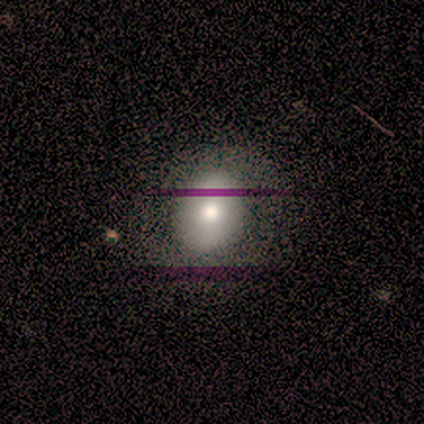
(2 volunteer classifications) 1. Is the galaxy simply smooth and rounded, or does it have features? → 100% smooth, 0% featured or disk, 0% star or artifact.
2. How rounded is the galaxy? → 100% in between, 0% round, 0% cigar-shaped.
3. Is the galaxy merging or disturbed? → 50% none (tied), 50% minor disturbance (tied), 0% major disturbance, 0% merger.